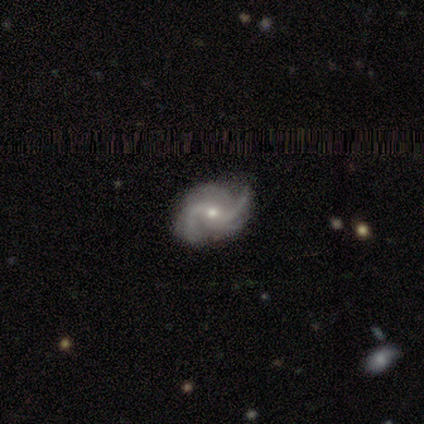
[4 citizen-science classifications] This is likely a featured or disk galaxy (75%). It is clearly not viewed edge-on (100%). Bar: likely strong (67%). Spiral arm pattern: clearly yes (100%). Spiral arm count: likely 3 (67%). Spiral winding: likely medium (67%). Central bulge: likely moderate (67%). Merging: clearly none (100%).